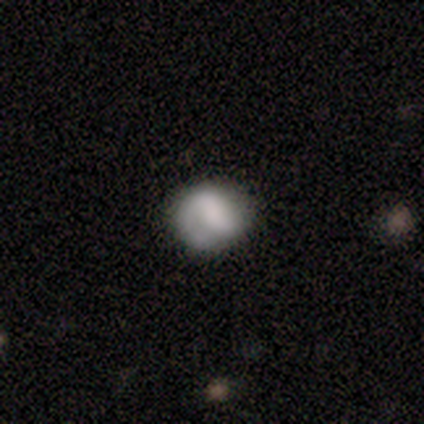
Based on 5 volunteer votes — Smooth or featured: smooth — 60% (featured or disk — 40%)
How rounded: round — 67% (in between — 33%)
Merging: none — 80% (major disturbance — 20%)